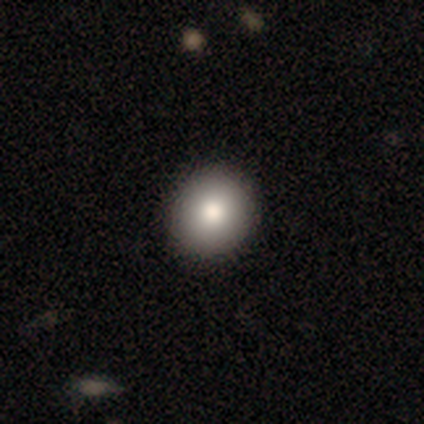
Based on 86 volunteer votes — smooth 83%, star or artifact 10%, featured or disk 7%. Down the decision tree: how rounded — round (87%); merging — none (88%).